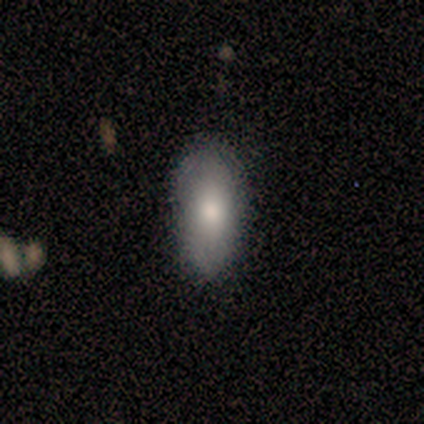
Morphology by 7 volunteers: Overall: smooth (100%). How rounded: in between (86%). Merging: none (86%).